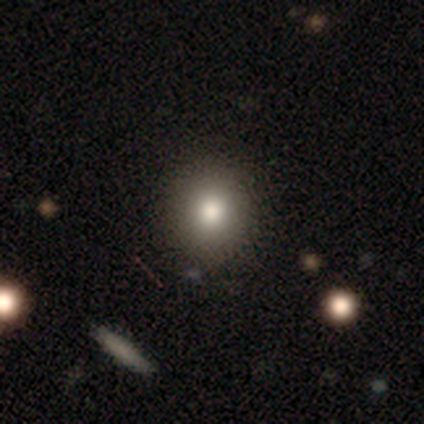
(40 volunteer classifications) Morphology: type=smooth (72%); roundness=round (86%); merging=none (83%).